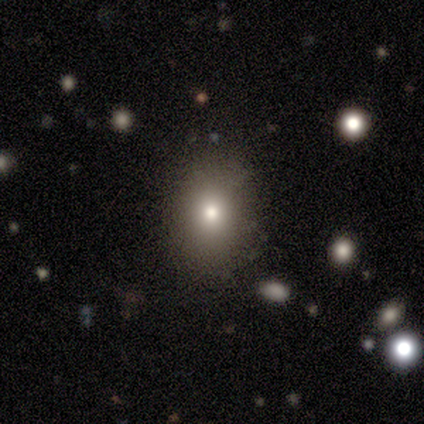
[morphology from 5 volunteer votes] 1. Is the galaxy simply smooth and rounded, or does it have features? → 100% smooth, 0% featured or disk, 0% star or artifact.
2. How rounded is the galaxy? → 60% round, 40% in between, 0% cigar-shaped.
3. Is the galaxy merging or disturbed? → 80% none, 20% minor disturbance, 0% major disturbance, 0% merger.